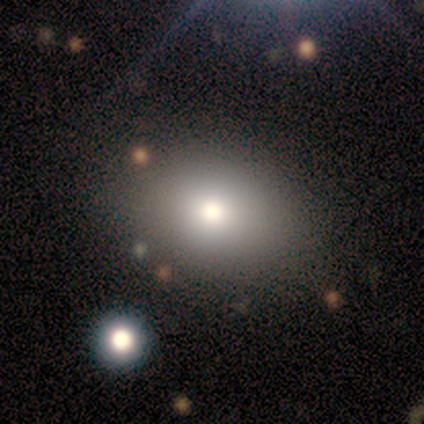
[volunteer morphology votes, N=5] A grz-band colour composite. It shows a smooth galaxy with no disk features (60%) that is in between round and cigar-shaped (67%). Merging: none (100%).